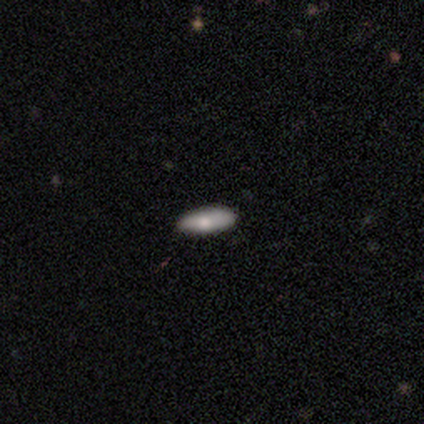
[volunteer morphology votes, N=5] A featured or disk galaxy (60%) viewed edge-on (67%) with a rounded central bulge (100%). Merging: none (80%).